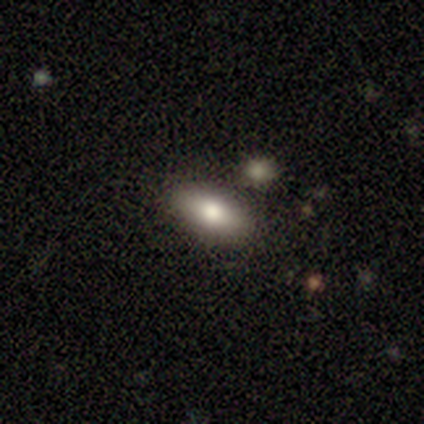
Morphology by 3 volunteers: type=smooth (67%); roundness=round (50%, tied with in between); merging=none (67%).